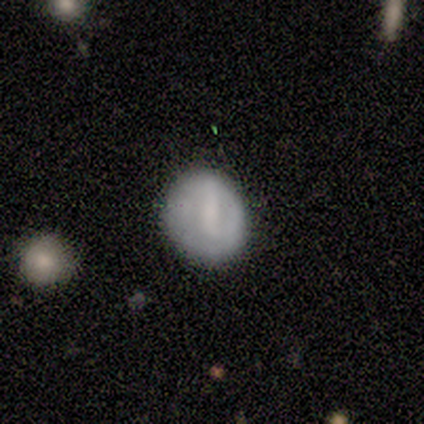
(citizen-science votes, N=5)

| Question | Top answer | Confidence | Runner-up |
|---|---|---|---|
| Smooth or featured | smooth | 60% | star or artifact (40%) |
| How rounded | round | 67% | in between (33%) |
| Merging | minor disturbance | 67% | major disturbance (33%) |